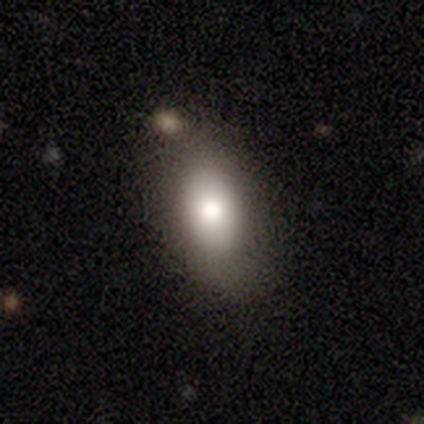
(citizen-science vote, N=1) This appears to be a featured or disk galaxy (100%) viewed edge-on (100%) with a rounded central bulge (100%). Merging: minor disturbance (100%).